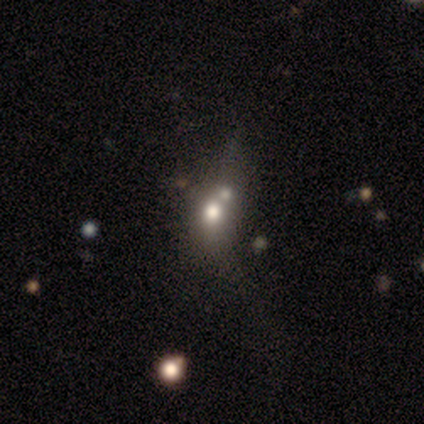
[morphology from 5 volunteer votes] Smooth or featured? smooth (40%, tied with featured or disk)
How rounded? round (50%, tied with in between)
Merging? merger (75%)